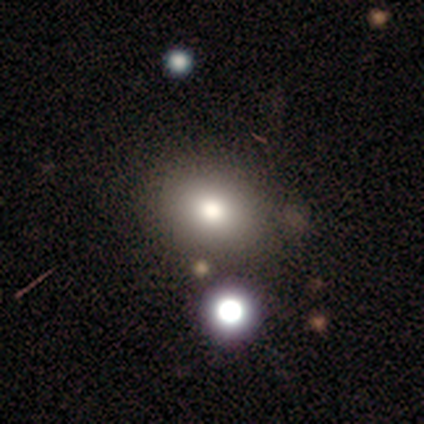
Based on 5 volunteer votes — Morphology: type=smooth (60%); roundness=round (67%); merging=none (50%, tied with minor disturbance).